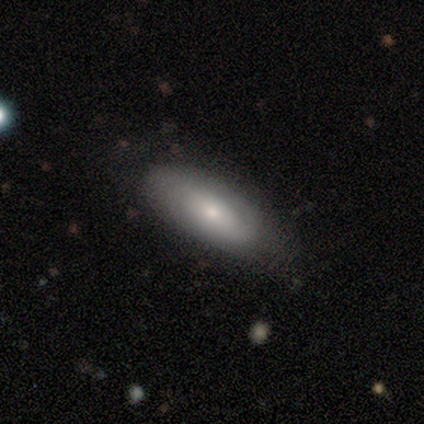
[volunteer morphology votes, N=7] A smooth galaxy with no disk features (57%) that is in between round and cigar-shaped (75%). Merging: none (57%).